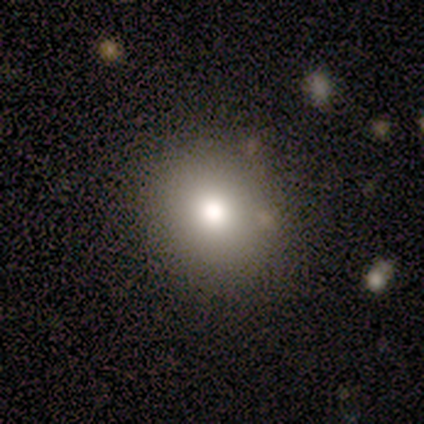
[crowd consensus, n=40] Morphology: type=smooth (70%); roundness=round (79%); merging=none (94%).